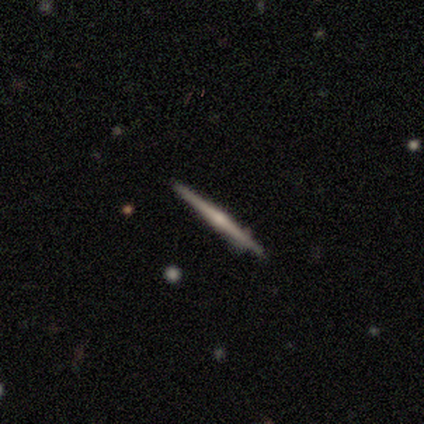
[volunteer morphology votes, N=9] type=featured or disk (56%); edge-on=yes (100%); edge-on bulge=rounded (80%); merging=none (78%).